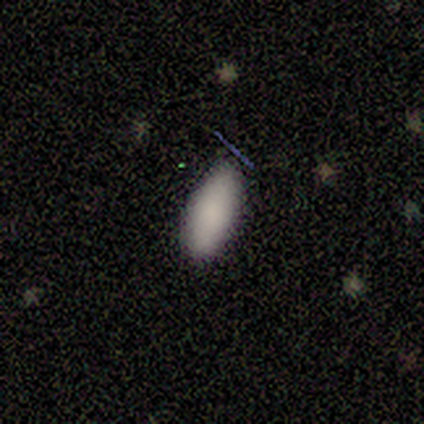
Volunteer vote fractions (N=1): smooth-or-featured: smooth: 100% | featured or disk: 0% | star or artifact: 0%
  how-rounded: cigar-shaped: 100% | round: 0% | in between: 0%
  merging: none: 100% | minor disturbance: 0% | major disturbance: 0% | merger: 0%